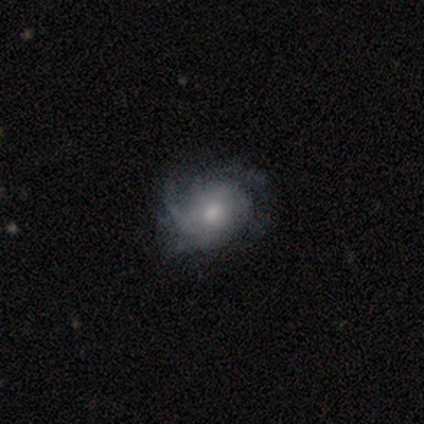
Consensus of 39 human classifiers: Volunteers were most divided on "merging": none: 32%, minor disturbance: 24%, major disturbance: 16%, merger: 0%. Remaining: edge-on disk — no (100%); spiral arms — yes (89%); smooth or featured — featured or disk (72%); bar — no (64%); bulge size — moderate (64%); spiral winding — medium (48%); spiral arm count — can't tell (48%).